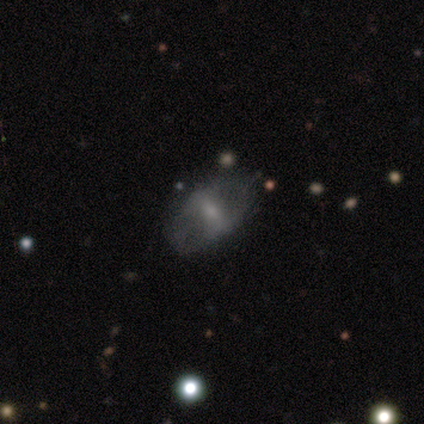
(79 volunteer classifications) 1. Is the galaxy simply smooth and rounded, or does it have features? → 56% featured or disk, 38% smooth, 6% star or artifact.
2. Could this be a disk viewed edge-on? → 86% no, 14% yes.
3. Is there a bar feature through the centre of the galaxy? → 47% weak, 29% no, 24% strong.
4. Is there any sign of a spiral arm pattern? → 79% no, 21% yes.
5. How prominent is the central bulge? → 47% small, 34% moderate, 13% none, 5% large, 0% dominant.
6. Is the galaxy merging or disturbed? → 65% none, 24% minor disturbance, 8% major disturbance, 3% merger.